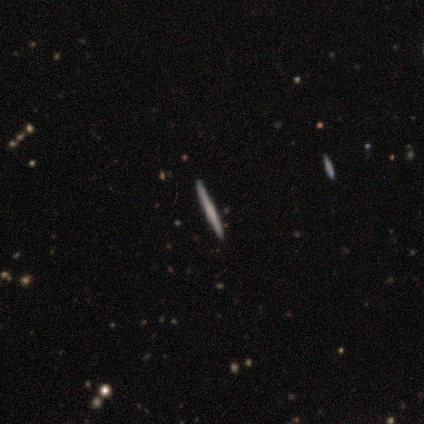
This is likely a featured or disk galaxy (67%). It is clearly viewed edge-on (100%). Edge-on bulge: possibly none (50%, tied with rounded). Merging: likely minor disturbance (67%).